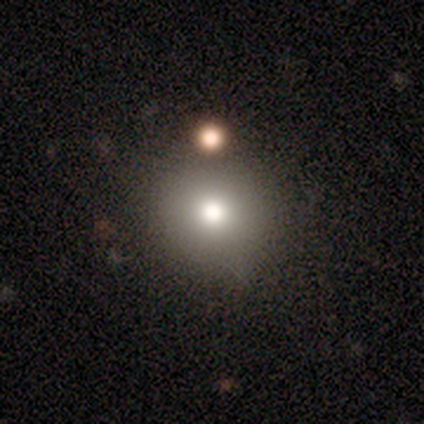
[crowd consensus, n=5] Morphology: type=smooth (100%); roundness=round (80%); merging=none (80%).